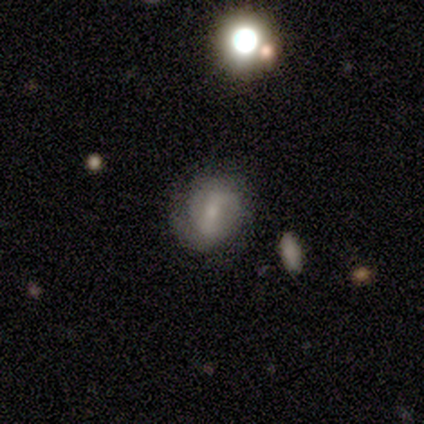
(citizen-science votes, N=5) Q: Smooth or featured?
A: smooth (40%); tied with: star or artifact (40%)
Q: How rounded?
A: round (50%); tied with: in between (50%)
Q: Merging?
A: merger (67%); runner-up: none (33%)